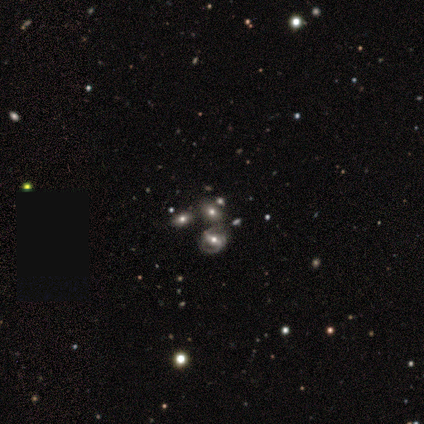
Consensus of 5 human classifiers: A featured or disk galaxy (60%) with a strong bar (33%, tied with weak and no), tight (100%) spiral arms (100%) and a large central bulge (33%, tied with moderate and small). Merging: none (80%).